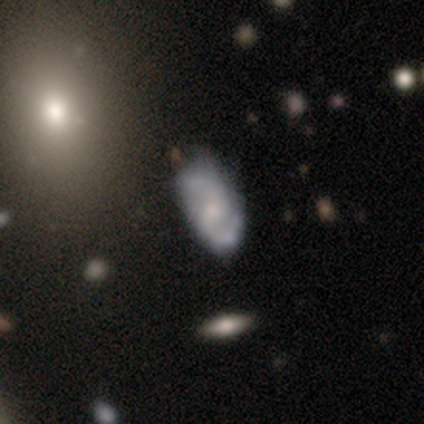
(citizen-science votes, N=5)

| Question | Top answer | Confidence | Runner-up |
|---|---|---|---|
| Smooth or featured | featured or disk | 100% | — |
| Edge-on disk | no | 80% | yes (20%) |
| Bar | weak | 50% | strong (25%) |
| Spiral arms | yes | 100% | — |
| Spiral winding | medium | 75% | loose (25%) |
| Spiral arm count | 2 | 100% | — |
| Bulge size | moderate | 50% | tied: small (50%) |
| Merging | none | 60% | minor disturbance (20%) |